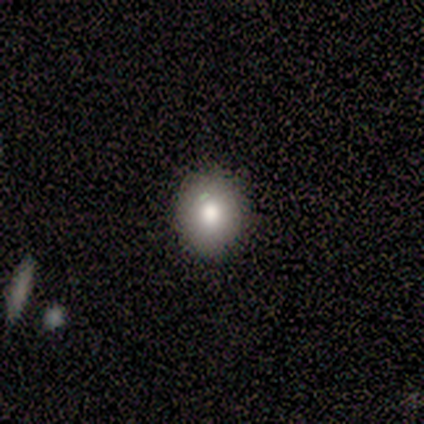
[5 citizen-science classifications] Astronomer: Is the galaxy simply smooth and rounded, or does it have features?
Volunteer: smooth — 60%.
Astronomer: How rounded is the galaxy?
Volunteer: round — 100%.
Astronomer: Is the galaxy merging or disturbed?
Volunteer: none — 75%.